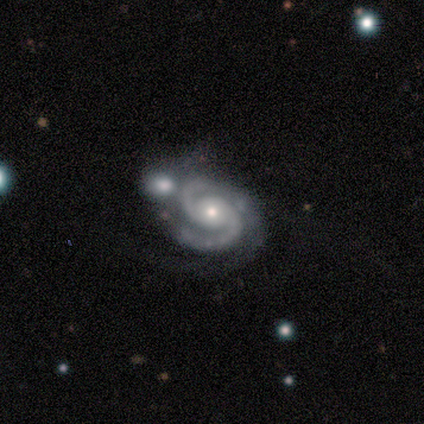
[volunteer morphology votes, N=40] Smooth or featured? 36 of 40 (90%) said featured or disk. Edge-on disk? 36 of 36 (100%) said no. Bar? 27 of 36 (75%) said no. Spiral arms? 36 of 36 (100%) said yes. Spiral winding? 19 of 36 (53%) said medium. Spiral arm count? 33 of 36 (92%) said 2. Bulge size? 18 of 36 (50%) said moderate. Merging? 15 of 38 (39%) said none.